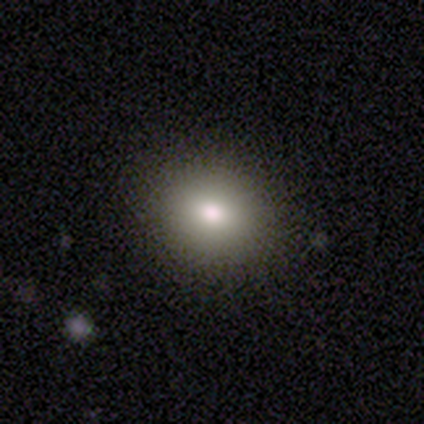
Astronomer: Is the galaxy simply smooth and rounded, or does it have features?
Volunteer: smooth — 80%.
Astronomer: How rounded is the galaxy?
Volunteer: round — 50%, tied with in between at 50%.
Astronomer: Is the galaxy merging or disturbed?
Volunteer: none — 100%.